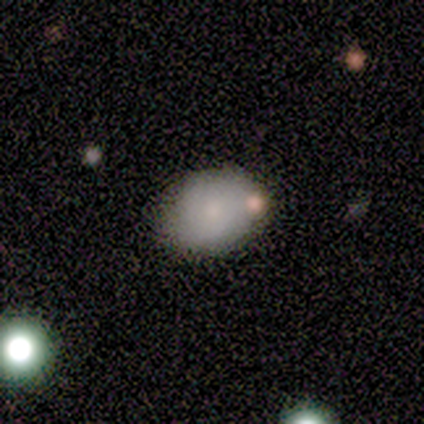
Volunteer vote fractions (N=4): Smooth or featured? smooth (100%)
How rounded? in between (75%)
Merging? none (100%)